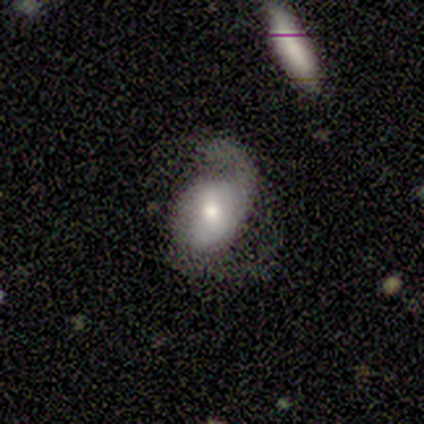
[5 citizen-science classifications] This is clearly a featured or disk galaxy (80%). It is clearly not viewed edge-on (100%). Bar: possibly weak (50%, tied with no). Spiral arm pattern: clearly yes (100%). Spiral arm count: clearly 2 (100%). Spiral winding: likely loose (75%). Central bulge: likely moderate (75%). Merging: marginally none (40%, tied with minor disturbance).